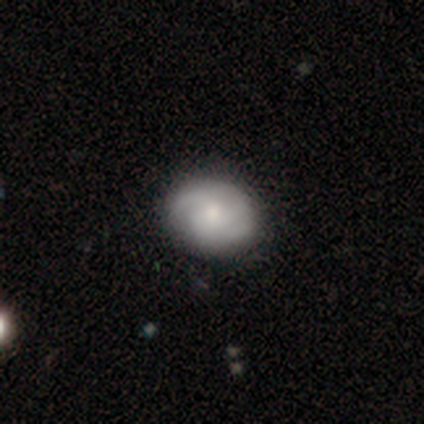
smooth-or-featured: featured or disk: 62% | smooth: 32% | star or artifact: 5%
  disk-edge-on: no: 100% | yes: 0%
    bar: no: 80% | weak: 20% | strong: 0%
    has-spiral-arms: yes: 88% | no: 12%
      spiral-winding: medium: 55% | tight: 45% | loose: 0%
      spiral-arm-count: 3: 36% | can't tell: 32% | 2: 27% | 1: 5% | 4: 0% | more than 4: 0%
    bulge-size: moderate: 48% | small: 36% | large: 8% | none: 8% | dominant: 0%
  merging: none: 58% | minor disturbance: 3% | major disturbance: 3% | merger: 0%